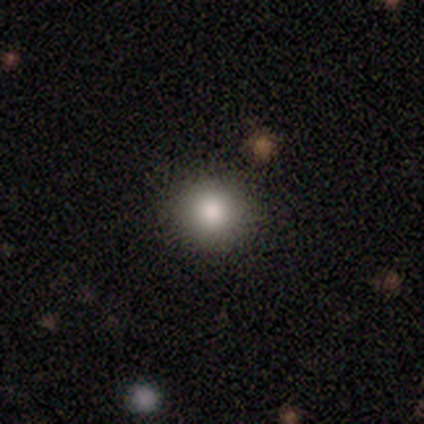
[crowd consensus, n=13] Smooth or featured: smooth — 77% (star or artifact — 23%)
How rounded: round — 100%
Merging: none — 90% (major disturbance — 10%)